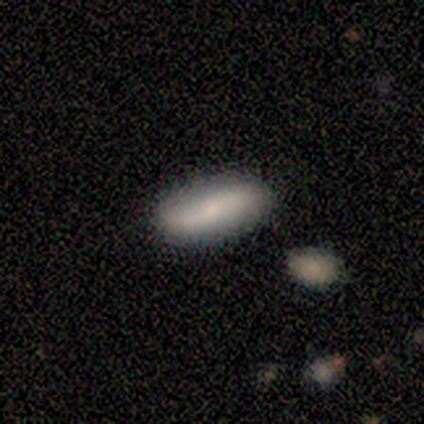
smooth 60%, featured or disk 40%, star or artifact 0%. Down the decision tree: how rounded — cigar-shaped (67%); merging — none (80%).